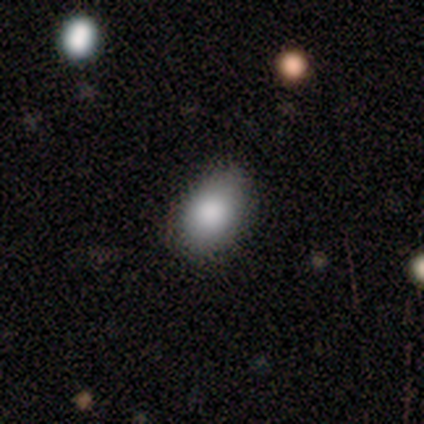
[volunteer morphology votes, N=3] A smooth galaxy with no disk features (100%) that is in between round and cigar-shaped (67%). Merging: none (67%).